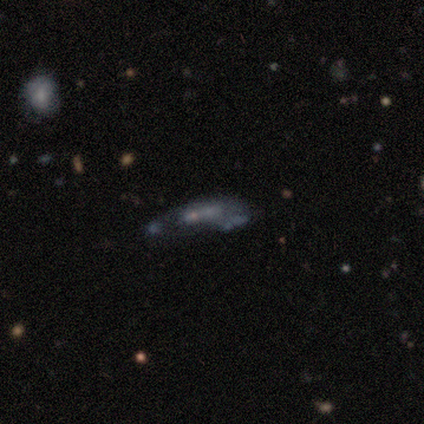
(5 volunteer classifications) Smooth or featured: featured or disk — 60% (smooth — 20%)
Edge-on disk: no — 67% (yes — 33%)
Bar: no — 100%
Spiral arms: yes — 50% (tied with no — 50%)
Spiral winding: loose — 100%
Spiral arm count: 3 — 100%
Bulge size: moderate — 50% (tied with none — 50%)
Merging: none — 50% (tied with major disturbance — 50%)